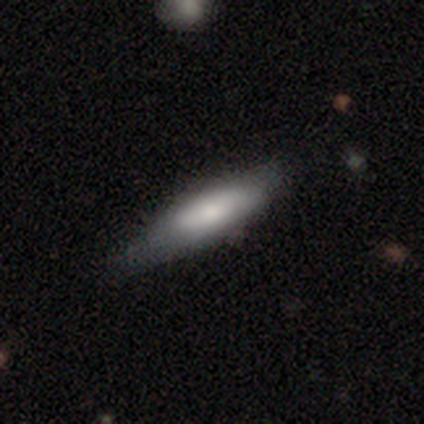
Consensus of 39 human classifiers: Overall: smooth (67%; featured or disk 28%). How rounded: cigar-shaped (62%; in between 35%). Merging: none (59%; minor disturbance 35%).